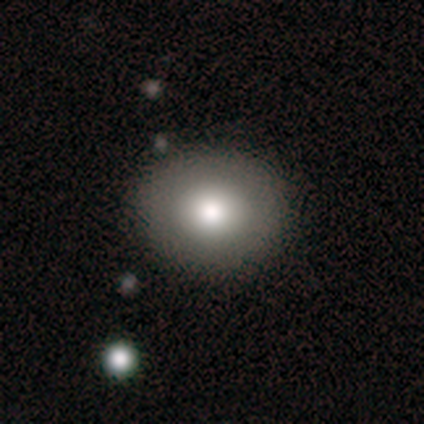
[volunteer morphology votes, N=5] smooth 60%, featured or disk 20%, star or artifact 20%. Down the decision tree: how rounded — round (100%); merging — none (100%).